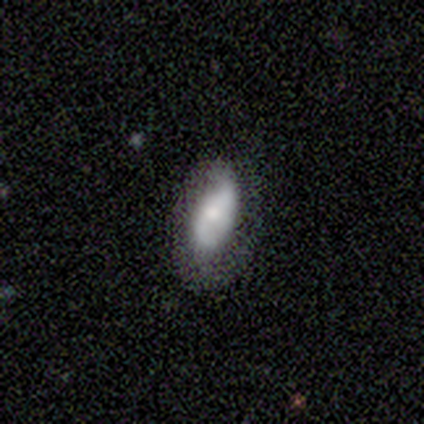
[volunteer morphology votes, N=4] A smooth galaxy with no disk features (75%) that is in between round and cigar-shaped (100%). Merging: minor disturbance (67%).